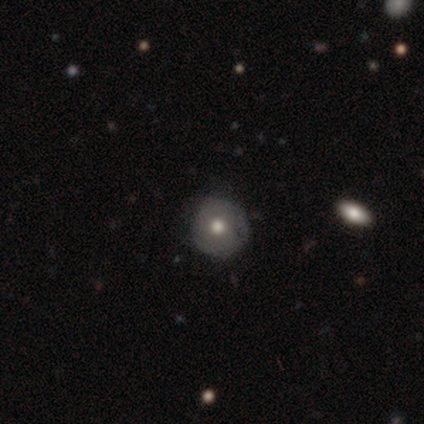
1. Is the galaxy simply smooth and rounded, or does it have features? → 75% smooth, 25% featured or disk, 0% star or artifact.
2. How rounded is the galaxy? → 100% round, 0% in between, 0% cigar-shaped.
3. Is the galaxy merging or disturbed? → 75% none, 25% minor disturbance, 0% major disturbance, 0% merger.